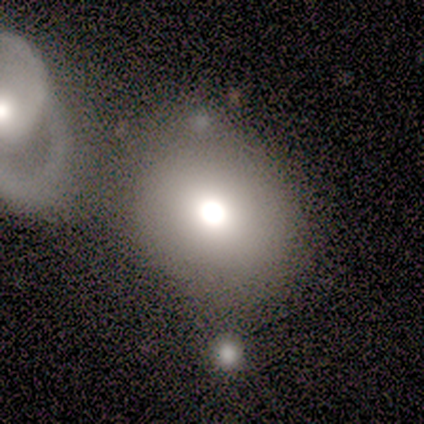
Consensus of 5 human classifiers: smooth_or_featured: featured or disk (p=0.40) [tied with: star or artifact p=0.40]
disk_edge_on: no (p=1.00)
bar: no (p=1.00)
has_spiral_arms: no (p=1.00)
bulge_size: large (p=0.50) [tied with: moderate p=0.50]
merging: none (p=0.67) [alt: minor disturbance p=0.33]